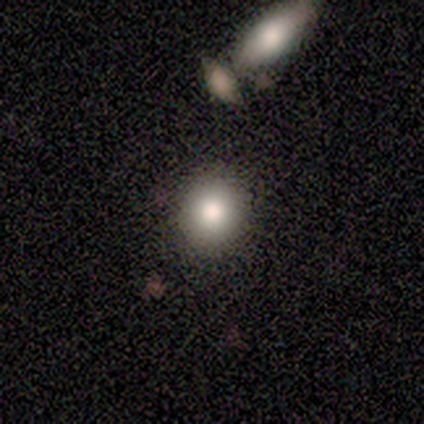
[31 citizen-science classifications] Smooth or featured? 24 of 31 (77%) said smooth. How rounded? 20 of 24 (83%) said round. Merging? 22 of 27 (81%) said none.